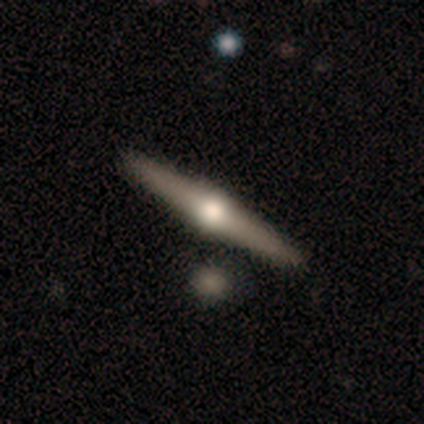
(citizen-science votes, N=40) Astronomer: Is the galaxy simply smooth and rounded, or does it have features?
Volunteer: featured or disk — 82%.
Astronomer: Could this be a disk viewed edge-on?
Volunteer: yes — 100%.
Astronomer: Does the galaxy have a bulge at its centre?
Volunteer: rounded — 97%.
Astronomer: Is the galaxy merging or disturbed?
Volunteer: none — 65%.